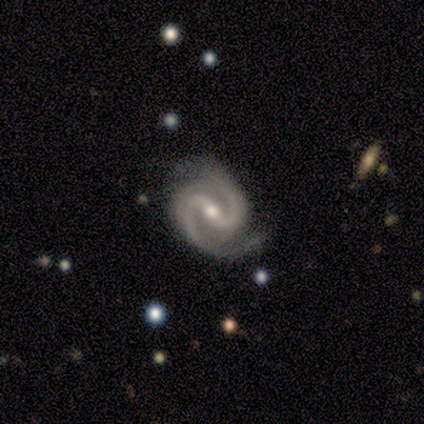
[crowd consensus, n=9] featured or disk 89%, star or artifact 11%, smooth 0%. Down the decision tree: edge-on disk — no (100%); bar — strong (75%); spiral arms — yes (88%); spiral arm count — 2 (86%); spiral winding — medium (57%); bulge size — small (75%); merging — minor disturbance (50%).